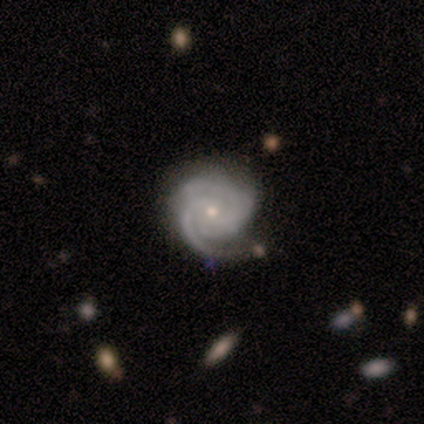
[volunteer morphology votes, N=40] Volunteers were most divided on "spiral arm count": 3: 50%, 2: 35%, can't tell: 12%, 4: 3%, 1: 0%, more than 4: 0%. More confident: edge-on disk — no (100%); spiral arms — yes (97%); smooth or featured — featured or disk (88%); spiral winding — tight (79%); merging — none (71%); bulge size — small (69%); bar — no (60%).